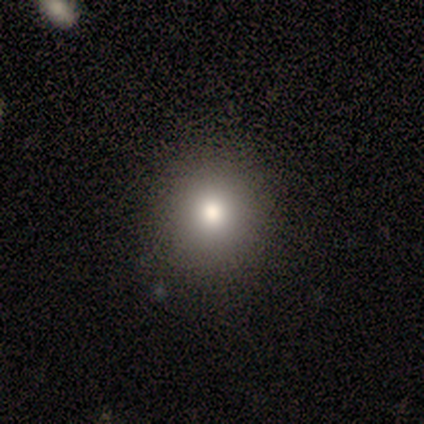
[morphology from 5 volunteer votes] This appears to be a smooth galaxy with no disk features (80%) that is round (50%, tied with in between). Merging: none (80%).